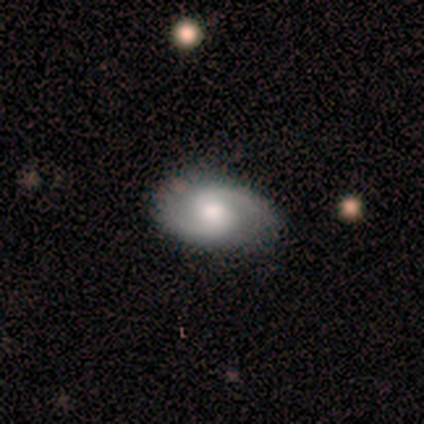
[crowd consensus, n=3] Smooth or featured? featured or disk (100%)
Edge-on disk? no (100%)
Bar? no (67%)
Spiral arms? yes (100%)
Spiral winding? loose (67%)
Spiral arm count? 2 (100%)
Bulge size? moderate (100%)
Merging? none (100%)